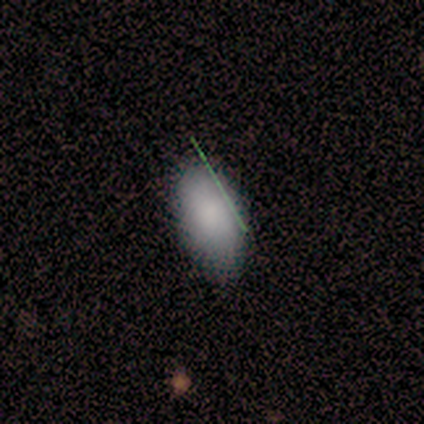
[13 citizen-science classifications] This is likely a smooth galaxy (77%). How rounded: clearly in between (90%). Merging: possibly none (55%).